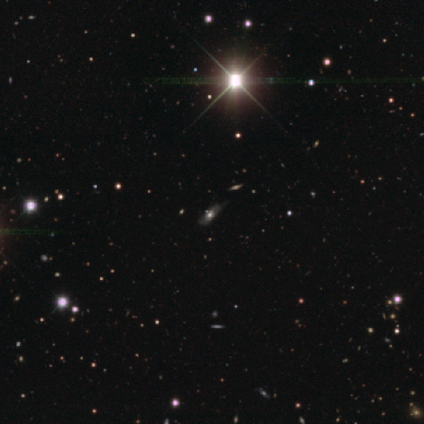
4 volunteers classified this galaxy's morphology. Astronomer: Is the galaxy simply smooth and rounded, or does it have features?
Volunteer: star or artifact — 75%.